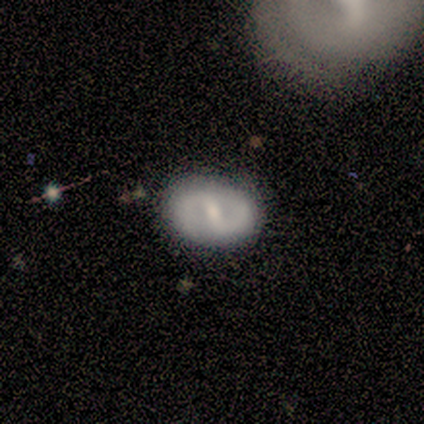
This appears to be a featured or disk galaxy (100%) with a strong bar (60%), tight (67%) spiral arms (60%) and a moderate central bulge (60%). Merging: none (80%).